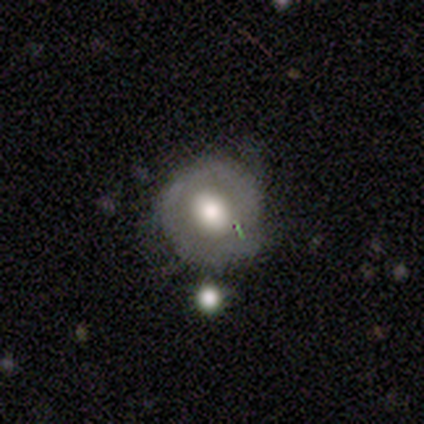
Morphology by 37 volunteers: A featured or disk galaxy (49%) with no bar (81%), no spiral arms (75%) and a large central bulge (62%). Merging: none (62%).